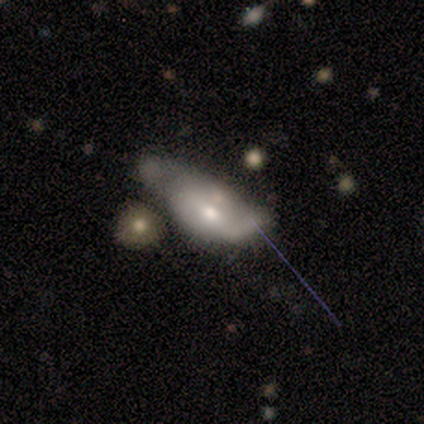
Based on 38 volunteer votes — A featured or disk galaxy (50%) with no bar (53%), no spiral arms (65%) and a moderate central bulge (47%). Merging: major disturbance (35%).